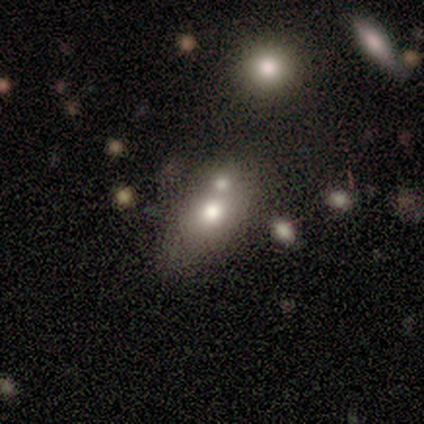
Q: Smooth or featured?
A: smooth (100%)
Q: How rounded?
A: in between (80%); runner-up: cigar-shaped (20%)
Q: Merging?
A: merger (80%); runner-up: minor disturbance (20%)